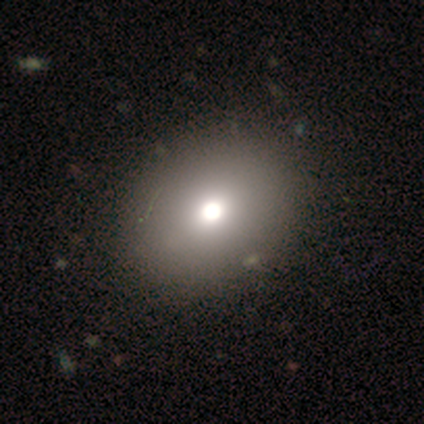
Smooth or featured? smooth (100%)
How rounded? in between (60%)
Merging? none (80%)